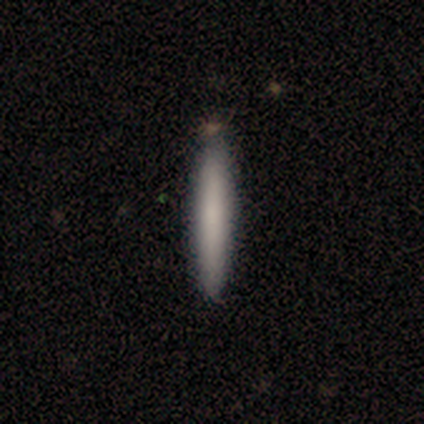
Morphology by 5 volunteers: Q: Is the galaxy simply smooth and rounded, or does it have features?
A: smooth — 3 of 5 (60%).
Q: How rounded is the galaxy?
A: cigar-shaped — 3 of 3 (100%).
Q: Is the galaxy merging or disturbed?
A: none — 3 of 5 (60%).